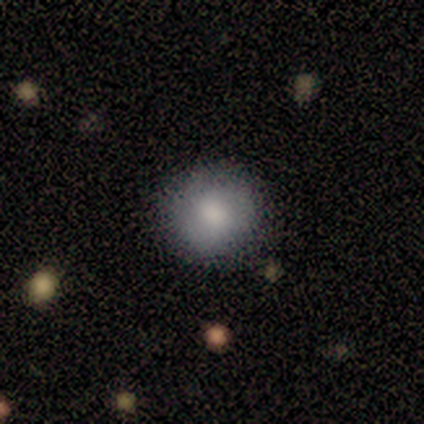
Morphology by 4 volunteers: Smooth or featured? 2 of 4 (50%, tied with featured or disk) said smooth. How rounded? 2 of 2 (100%) said round. Merging? 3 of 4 (75%) said none.